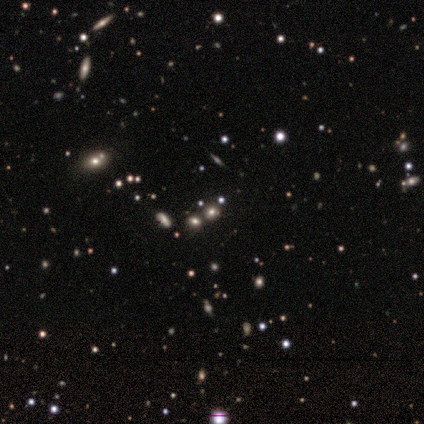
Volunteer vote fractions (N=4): featured or disk 50%, smooth 25%, star or artifact 25%. Down the decision tree: edge-on disk — no (100%); bar — strong (50%, tied with no); spiral arms — no (100%); bulge size — large (50%, tied with moderate); merging — minor disturbance (67%).